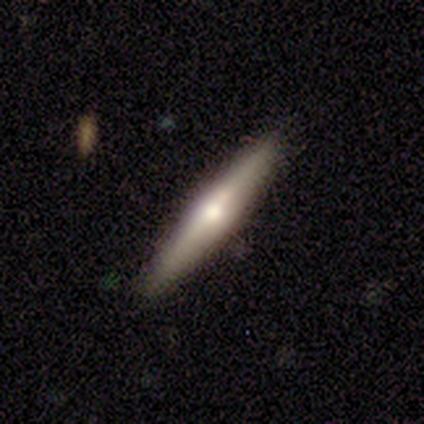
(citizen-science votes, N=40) A featured or disk galaxy (62%) viewed edge-on (100%) with a rounded central bulge (80%).

Vote fractions:
- Smooth or featured? featured or disk: 62% / smooth: 32% / star or artifact: 5%
- Edge-on disk? yes: 100% / no: 0%
- Edge-on bulge? rounded: 80% / boxy: 12% / none: 8%
- Merging? none: 84% / minor disturbance: 13% / merger: 3% / major disturbance: 0%